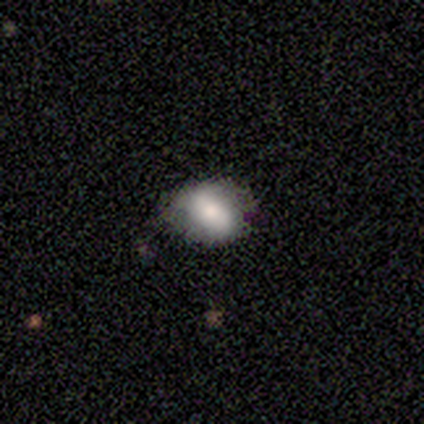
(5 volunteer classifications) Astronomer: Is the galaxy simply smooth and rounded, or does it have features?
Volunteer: smooth — 60%.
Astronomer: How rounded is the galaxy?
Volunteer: round — 67%.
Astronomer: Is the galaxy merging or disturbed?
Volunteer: none — 75%.